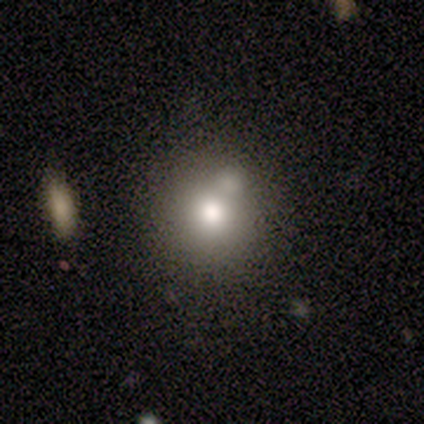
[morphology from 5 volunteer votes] A smooth galaxy with no disk features (60%) that is round (100%). Merging: merger (60%).